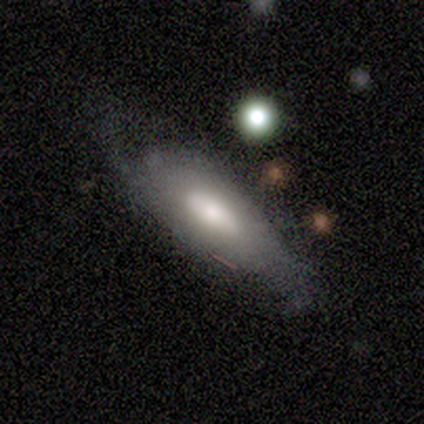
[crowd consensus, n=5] smooth_or_featured: featured or disk (p=0.80) [alt: smooth p=0.20]
disk_edge_on: no (p=1.00)
bar: no (p=0.75) [alt: weak p=0.25]
has_spiral_arms: yes (p=0.75) [alt: no p=0.25]
spiral_winding: medium (p=0.67) [alt: tight p=0.33]
spiral_arm_count: can't tell (p=0.67) [alt: 2 p=0.33]
bulge_size: large (p=0.50) [tied with: moderate p=0.50]
merging: none (p=0.80) [alt: minor disturbance p=0.20]